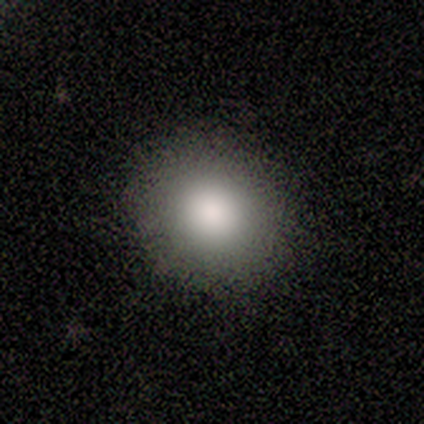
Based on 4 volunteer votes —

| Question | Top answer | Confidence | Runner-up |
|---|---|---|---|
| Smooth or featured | smooth | 100% | — |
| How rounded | round | 100% | — |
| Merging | none | 100% | — |